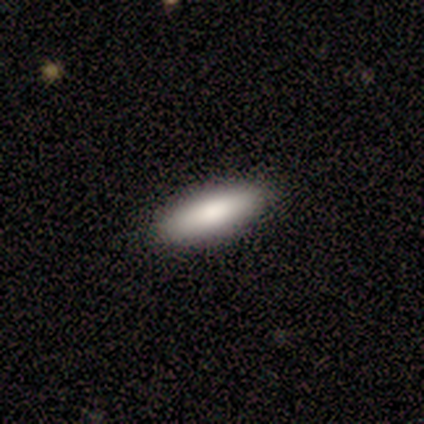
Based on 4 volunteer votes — Smooth or featured? 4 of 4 (100%) said smooth. How rounded? 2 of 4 (50%, tied with cigar-shaped) said in between. Merging? 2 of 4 (50%, tied with minor disturbance) said none.